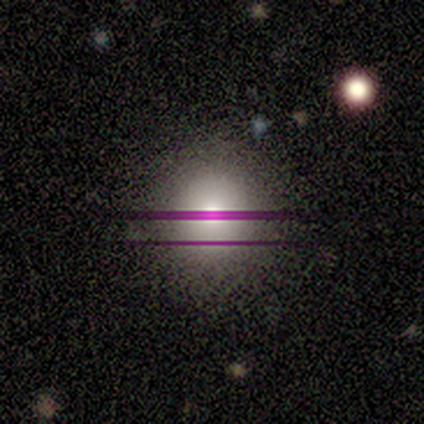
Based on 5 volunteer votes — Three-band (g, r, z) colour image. It shows a smooth galaxy with no disk features (100%) that is round (100%). Merging: none (100%).